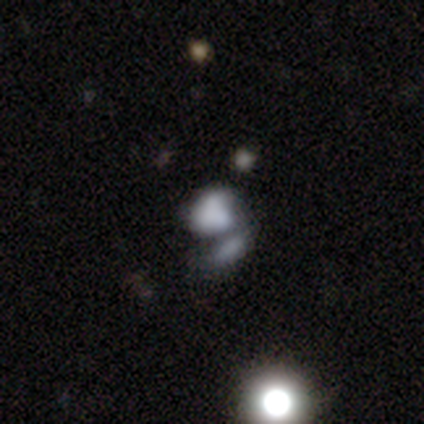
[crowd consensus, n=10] Smooth or featured? smooth (50%, tied with featured or disk)
How rounded? in between (60%)
Merging? merger (50%)